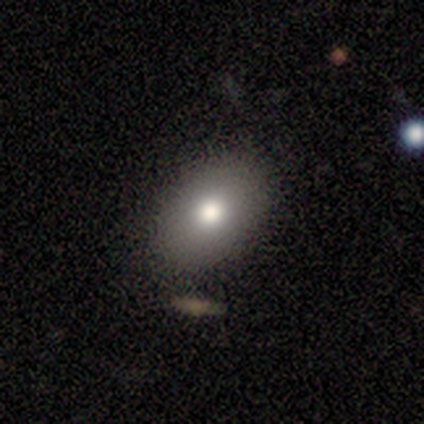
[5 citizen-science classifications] A smooth galaxy with no disk features (100%) that is in between round and cigar-shaped (100%).

Vote fractions:
- Smooth or featured? smooth: 100% / featured or disk: 0% / star or artifact: 0%
- How rounded? in between: 100% / round: 0% / cigar-shaped: 0%
- Merging? none: 100% / minor disturbance: 0% / major disturbance: 0% / merger: 0%